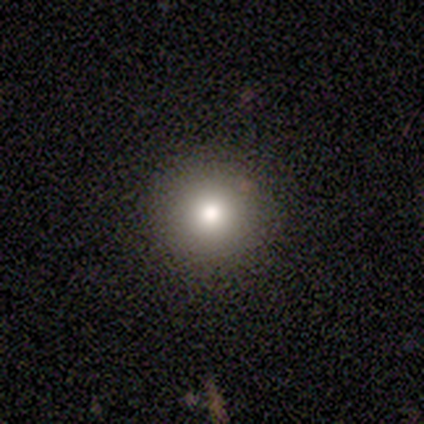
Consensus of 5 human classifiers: A smooth galaxy with no disk features (80%) that is round (100%). Merging: none (100%).